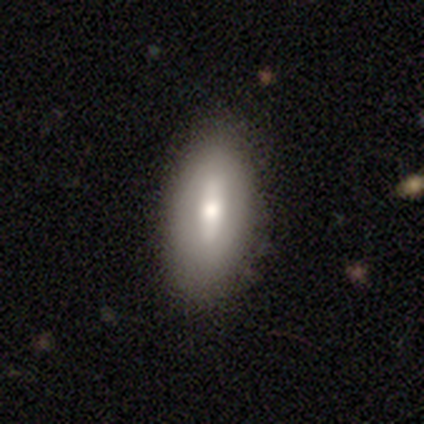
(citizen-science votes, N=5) Smooth or featured? 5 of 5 (100%) said smooth. How rounded? 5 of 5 (100%) said in between. Merging? 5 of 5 (100%) said none.